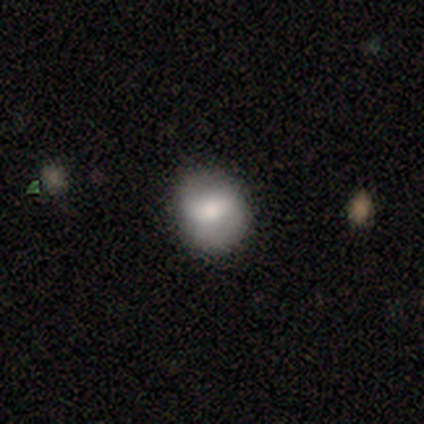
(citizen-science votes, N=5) Smooth or featured: smooth — 80% (featured or disk — 20%)
How rounded: round — 100%
Merging: none — 100%